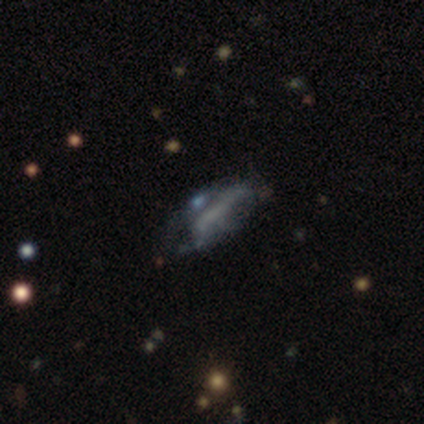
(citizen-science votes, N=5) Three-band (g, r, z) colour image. It shows a featured or disk galaxy (80%) with a weak bar (50%, tied with no), no spiral arms (75%) and no central bulge (75%). Merging: none (80%).